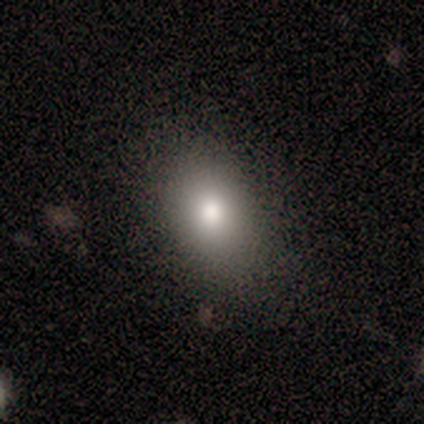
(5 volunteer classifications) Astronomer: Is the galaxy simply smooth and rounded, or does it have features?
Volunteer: smooth — 80%.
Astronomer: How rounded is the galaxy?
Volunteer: in between — 75%.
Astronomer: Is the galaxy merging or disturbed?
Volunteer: none — 100%.